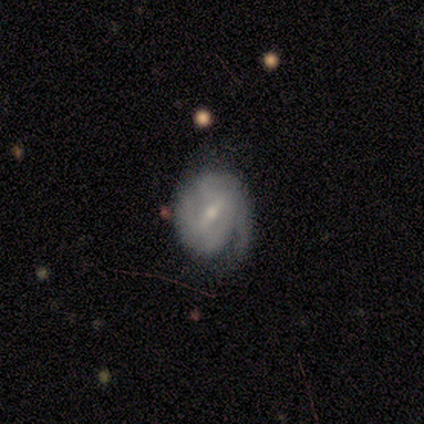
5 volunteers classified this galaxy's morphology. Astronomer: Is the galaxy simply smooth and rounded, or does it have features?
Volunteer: featured or disk — 100%.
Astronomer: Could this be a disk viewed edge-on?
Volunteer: no — 100%.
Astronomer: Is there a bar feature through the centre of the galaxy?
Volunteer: weak — 80%.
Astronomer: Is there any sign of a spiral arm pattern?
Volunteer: yes — 100%.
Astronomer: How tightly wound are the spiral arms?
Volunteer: medium — 60% (runner-up: tight, 40%).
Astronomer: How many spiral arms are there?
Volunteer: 1 — 40%, tied with 2 at 40%.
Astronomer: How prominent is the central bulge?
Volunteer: small — 60% (runner-up: moderate, 40%).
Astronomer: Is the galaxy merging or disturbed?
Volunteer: none — 100%.